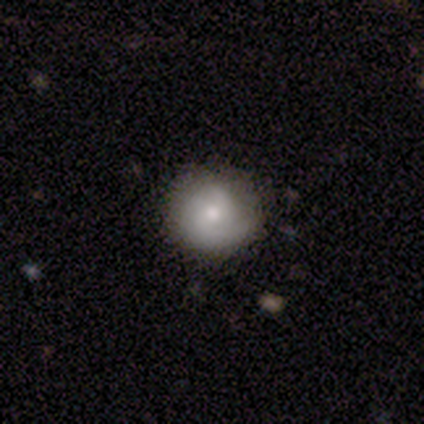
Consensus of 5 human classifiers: Smooth or featured? 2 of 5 (40%, tied with star or artifact) said featured or disk. Edge-on disk? 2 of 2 (100%) said no. Bar? 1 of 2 (50%, tied with no) said weak. Spiral arms? 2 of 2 (100%) said yes. Spiral winding? 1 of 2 (50%, tied with loose) said tight. Spiral arm count? 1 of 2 (50%, tied with 3) said 2. Bulge size? 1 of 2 (50%, tied with small) said moderate. Merging? 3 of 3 (100%) said none.